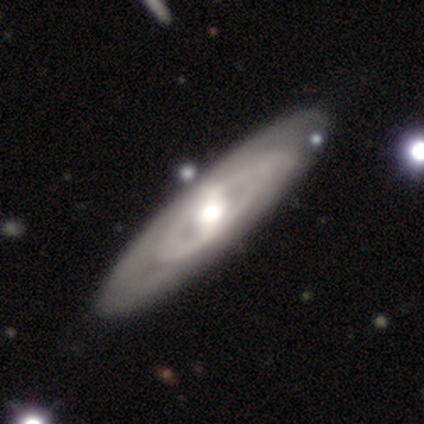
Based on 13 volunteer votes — Volunteers were most divided on "spiral arms" (2-way tie): yes: 50%, no: 50%. More confident: smooth or featured — featured or disk (92%); merging — none (85%); edge-on disk — no (83%); spiral arm count — can't tell (80%); bar — weak (70%); spiral winding — tight (60%); bulge size — moderate (60%).